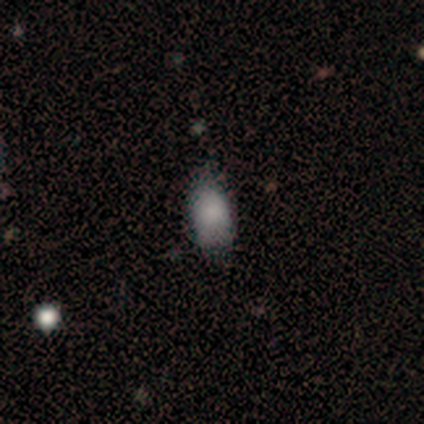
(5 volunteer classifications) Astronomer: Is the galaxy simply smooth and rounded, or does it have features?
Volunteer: smooth — 100%.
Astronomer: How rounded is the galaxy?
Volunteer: in between — 80%.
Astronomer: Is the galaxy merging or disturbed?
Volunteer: minor disturbance — 60% (runner-up: none, 40%).